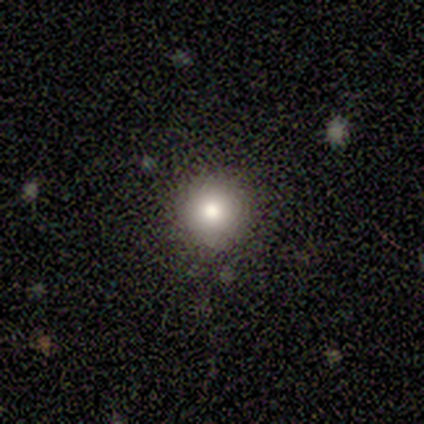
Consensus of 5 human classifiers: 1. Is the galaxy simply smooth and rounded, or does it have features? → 80% smooth, 20% star or artifact, 0% featured or disk.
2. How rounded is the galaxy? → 100% round, 0% in between, 0% cigar-shaped.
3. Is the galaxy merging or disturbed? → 100% none, 0% minor disturbance, 0% major disturbance, 0% merger.